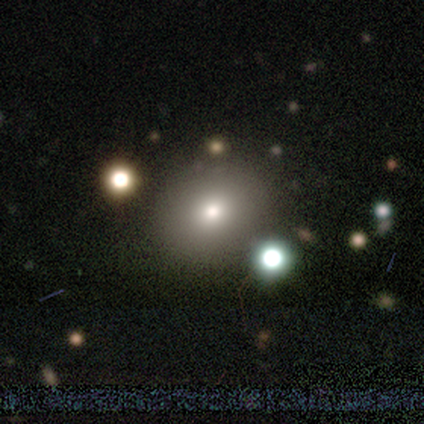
Smooth or featured?
  - smooth: 81% *
  - featured or disk: 10%
  - star or artifact: 9%
How rounded?
  - round: 80% *
  - in between: 20%
  - cigar-shaped: 0%
Merging?
  - none: 49% *
  - merger: 11%
  - minor disturbance: 10%
  - major disturbance: 0%